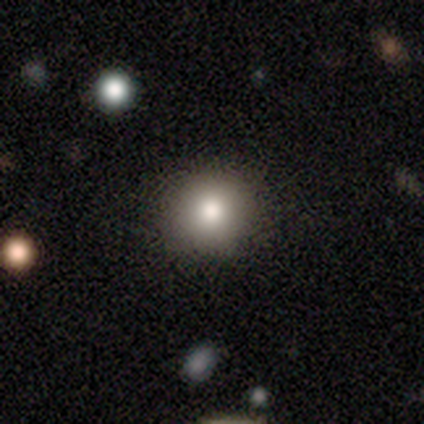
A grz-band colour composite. It shows a smooth galaxy with no disk features (77%) that is round (90%). Merging: none (86%).